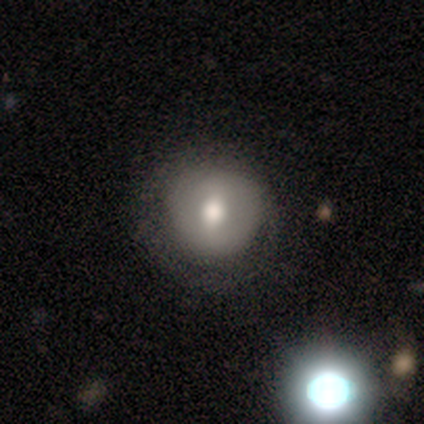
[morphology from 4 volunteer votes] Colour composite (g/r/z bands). It shows a smooth galaxy with no disk features (50%, tied with featured or disk) that is round (100%). Merging: none (50%, tied with minor disturbance).